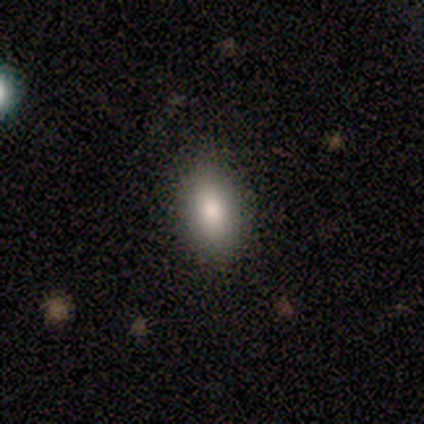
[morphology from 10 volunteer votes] A smooth galaxy with no disk features (60%) that is in between round and cigar-shaped (83%). Merging: none (67%).